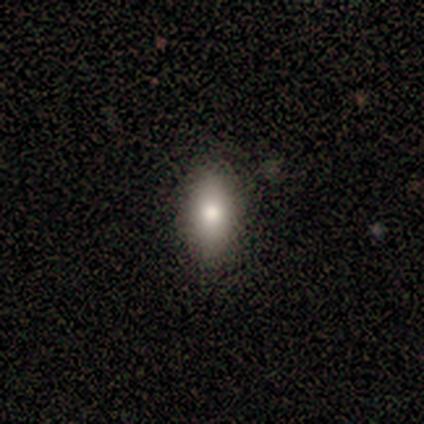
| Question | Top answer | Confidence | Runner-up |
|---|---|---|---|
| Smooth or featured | smooth | 80% | star or artifact (20%) |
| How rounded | round | 50% | tied: in between (50%) |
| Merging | none | 100% | — |